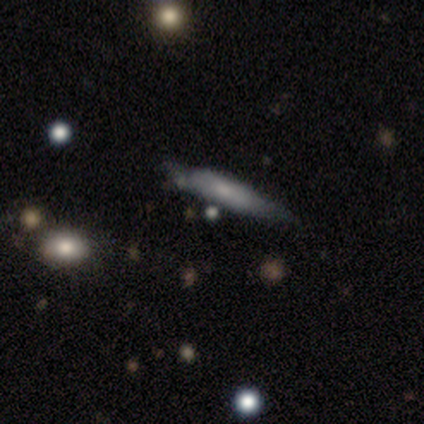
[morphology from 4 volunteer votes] Volunteers were most divided on "merging": minor disturbance: 50%, major disturbance: 25%, merger: 25%, none: 0%. More confident: smooth or featured — smooth (75%); how rounded — cigar-shaped (67%).